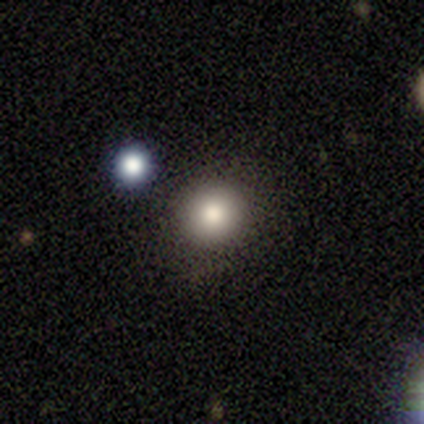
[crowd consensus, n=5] smooth-or-featured: smooth: 100% | featured or disk: 0% | star or artifact: 0%
  how-rounded: round: 100% | in between: 0% | cigar-shaped: 0%
  merging: none: 100% | minor disturbance: 0% | major disturbance: 0% | merger: 0%